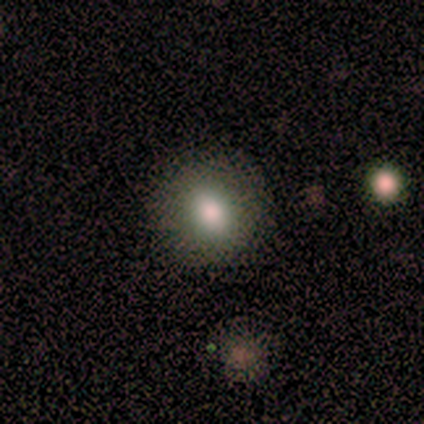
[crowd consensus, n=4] smooth_or_featured: smooth (p=0.50) [tied with: featured or disk p=0.50]
how_rounded: round (p=1.00)
merging: none (p=1.00)